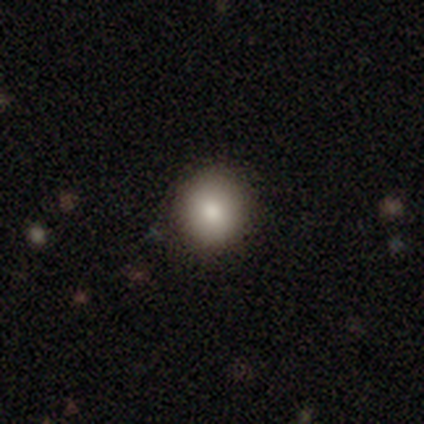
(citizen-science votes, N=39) This appears to be a smooth galaxy with no disk features (85%) that is round (82%). Merging: none (92%).